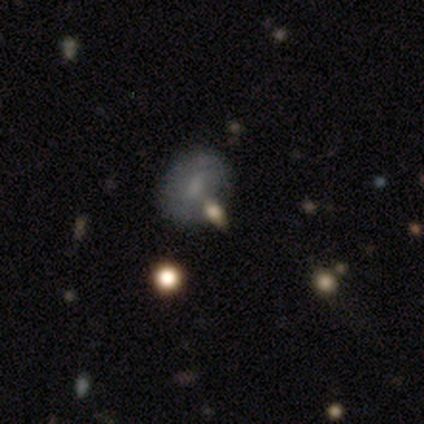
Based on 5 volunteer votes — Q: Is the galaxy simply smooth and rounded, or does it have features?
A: featured or disk — 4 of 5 (80%).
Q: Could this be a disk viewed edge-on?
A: no — 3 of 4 (75%).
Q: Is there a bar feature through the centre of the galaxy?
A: no — 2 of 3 (67%).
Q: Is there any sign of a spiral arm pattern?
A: no — 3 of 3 (100%).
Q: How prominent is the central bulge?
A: small — 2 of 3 (67%).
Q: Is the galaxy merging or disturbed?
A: none — 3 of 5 (60%).